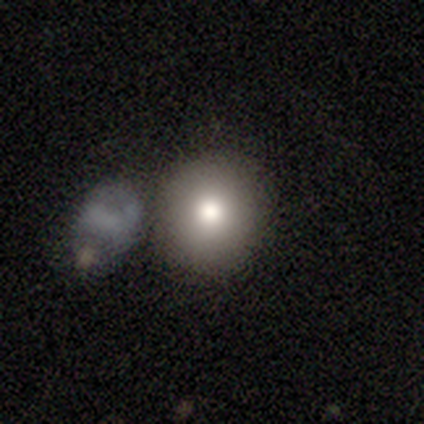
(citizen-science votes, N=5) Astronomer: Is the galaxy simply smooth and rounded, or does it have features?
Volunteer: featured or disk — 60%.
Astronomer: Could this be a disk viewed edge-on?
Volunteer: no — 100%.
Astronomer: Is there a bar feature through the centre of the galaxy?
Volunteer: no — 100%.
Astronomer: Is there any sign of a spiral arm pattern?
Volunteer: no — 100%.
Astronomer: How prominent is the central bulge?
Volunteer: moderate — 100%.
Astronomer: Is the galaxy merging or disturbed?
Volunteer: none — 50%.